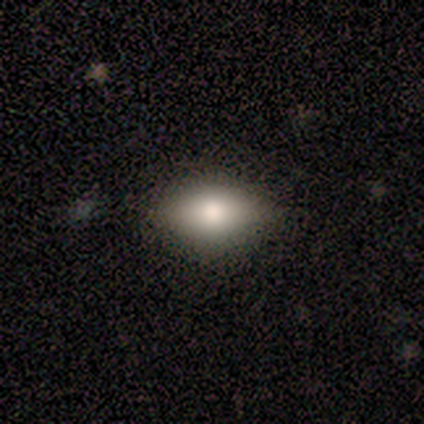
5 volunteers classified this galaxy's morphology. Smooth or featured?
  - smooth: 100% *
  - featured or disk: 0%
  - star or artifact: 0%
How rounded?
  - in between: 100% *
  - round: 0%
  - cigar-shaped: 0%
Merging?
  - none: 100% *
  - minor disturbance: 0%
  - major disturbance: 0%
  - merger: 0%